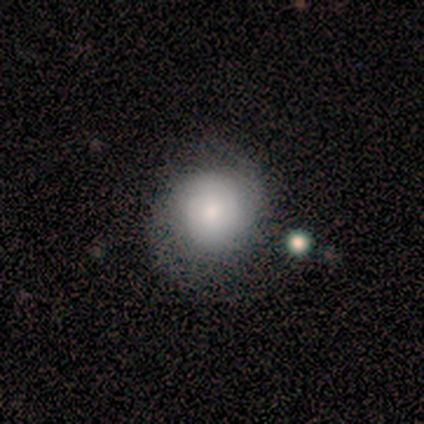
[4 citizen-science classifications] Smooth or featured? 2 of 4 (50%) said featured or disk. Edge-on disk? 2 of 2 (100%) said no. Bar? 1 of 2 (50%, tied with no) said weak. Spiral arms? 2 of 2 (100%) said yes. Spiral winding? 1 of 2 (50%, tied with loose) said medium. Spiral arm count? 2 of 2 (100%) said 2. Bulge size? 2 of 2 (100%) said small. Merging? 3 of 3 (100%) said none.